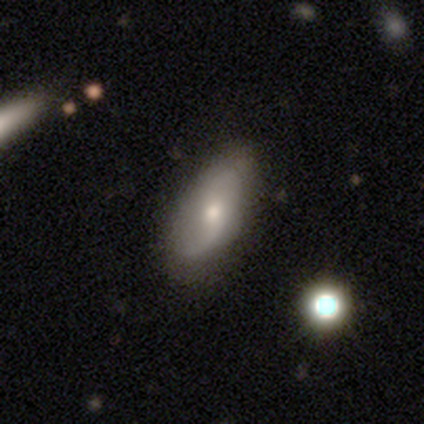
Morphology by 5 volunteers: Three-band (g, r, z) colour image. It shows a smooth galaxy with no disk features (40%, tied with featured or disk) that is in between round and cigar-shaped (100%). Merging: none (50%).